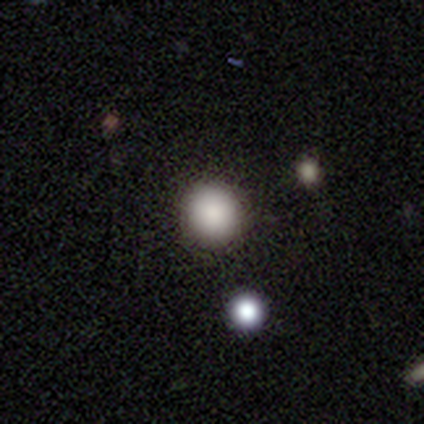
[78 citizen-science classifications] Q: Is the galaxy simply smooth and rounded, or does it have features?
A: smooth — 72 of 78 (92%).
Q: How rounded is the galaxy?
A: round — 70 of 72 (97%).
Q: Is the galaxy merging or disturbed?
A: none — 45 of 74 (61%).